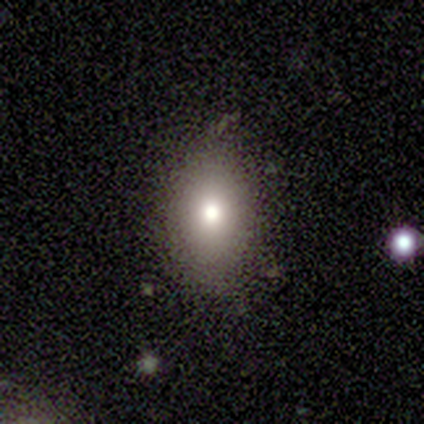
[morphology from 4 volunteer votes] smooth-or-featured: smooth: 100% | featured or disk: 0% | star or artifact: 0%
  how-rounded: in between: 50% | round: 25% | cigar-shaped: 25%
  merging: none: 75% | major disturbance: 25% | minor disturbance: 0% | merger: 0%